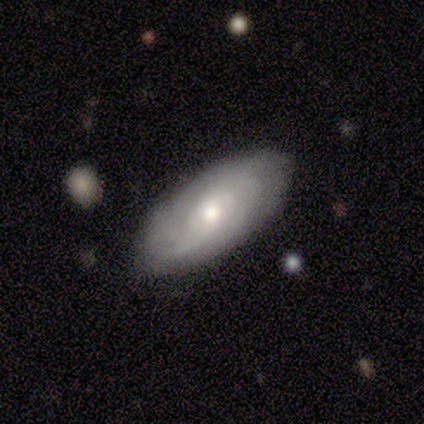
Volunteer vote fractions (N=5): Smooth or featured? featured or disk (100%)
Edge-on disk? no (100%)
Bar? no (100%)
Spiral arms? yes (80%)
Spiral winding? tight (50%, tied with loose)
Spiral arm count? can't tell (100%)
Bulge size? moderate (60%)
Merging? none (80%)